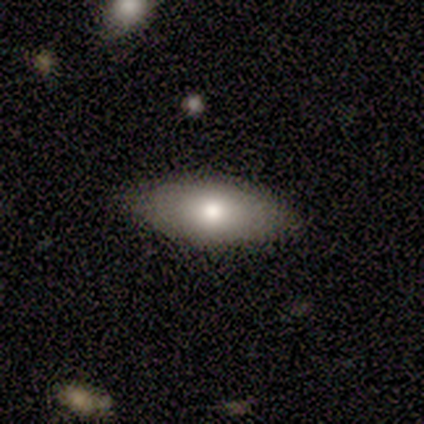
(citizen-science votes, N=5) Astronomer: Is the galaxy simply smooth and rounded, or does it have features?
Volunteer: smooth — 60% (runner-up: featured or disk, 40%).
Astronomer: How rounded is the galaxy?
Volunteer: in between — 100%.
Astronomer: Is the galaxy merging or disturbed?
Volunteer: none — 100%.